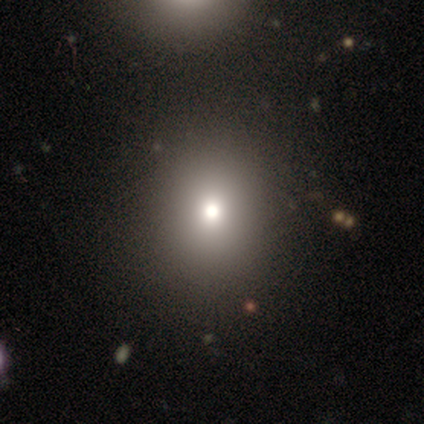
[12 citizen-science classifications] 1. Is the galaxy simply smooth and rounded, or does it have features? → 75% smooth, 17% featured or disk, 8% star or artifact.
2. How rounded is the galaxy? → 67% round, 33% in between, 0% cigar-shaped.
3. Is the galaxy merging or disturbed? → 73% none, 27% minor disturbance, 0% major disturbance, 0% merger.